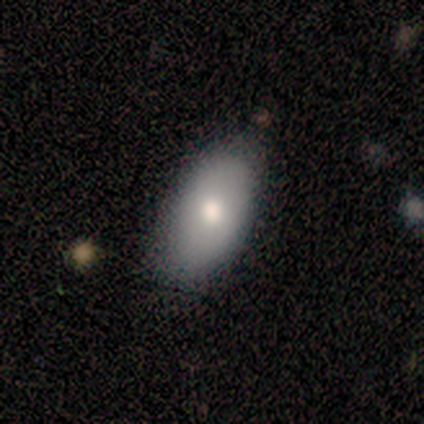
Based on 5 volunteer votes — Smooth or featured: smooth — 80% (featured or disk — 20%)
How rounded: in between — 100%
Merging: none — 60% (minor disturbance — 40%)